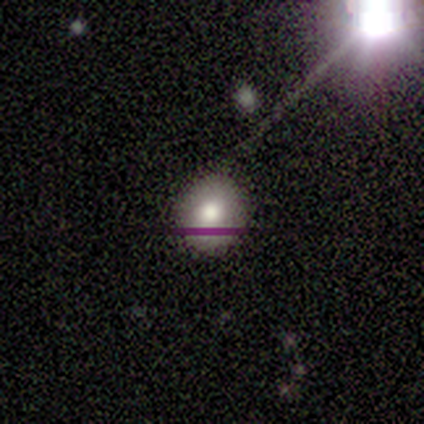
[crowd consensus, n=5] A smooth galaxy with no disk features (60%) that is round (67%).

Vote fractions:
- Smooth or featured? smooth: 60% / star or artifact: 40% / featured or disk: 0%
- How rounded? round: 67% / in between: 33% / cigar-shaped: 0%
- Merging? none: 100% / minor disturbance: 0% / major disturbance: 0% / merger: 0%